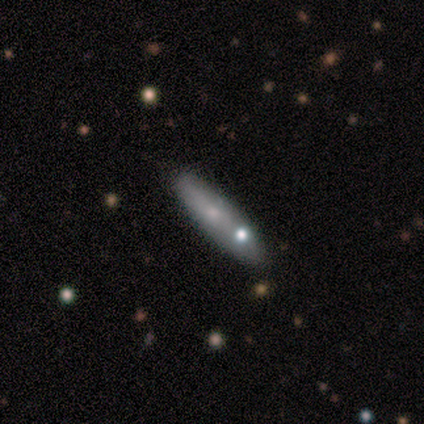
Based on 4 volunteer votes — Smooth or featured? 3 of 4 (75%) said smooth. How rounded? 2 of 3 (67%) said in between. Merging? 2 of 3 (67%) said none.